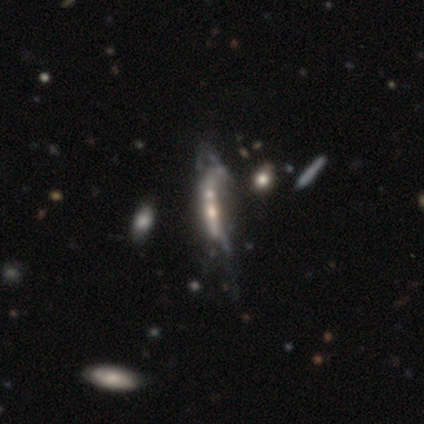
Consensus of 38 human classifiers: Smooth or featured: featured or disk — 66% (smooth — 18%)
Edge-on disk: no — 68% (yes — 32%)
Bar: no — 82% (weak — 12%)
Spiral arms: no — 88% (yes — 12%)
Bulge size: small — 53% (none — 29%)
Merging: merger — 38% (major disturbance — 34%)